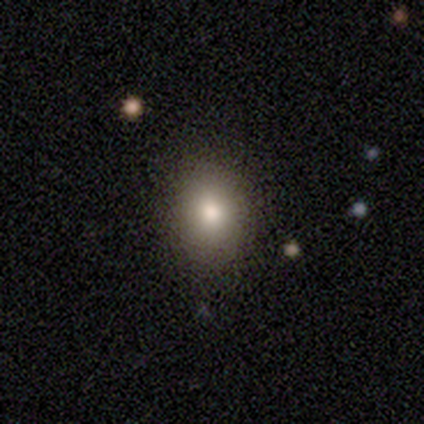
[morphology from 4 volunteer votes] This appears to be a smooth galaxy with no disk features (100%) that is in between round and cigar-shaped (75%). Merging: none (75%).